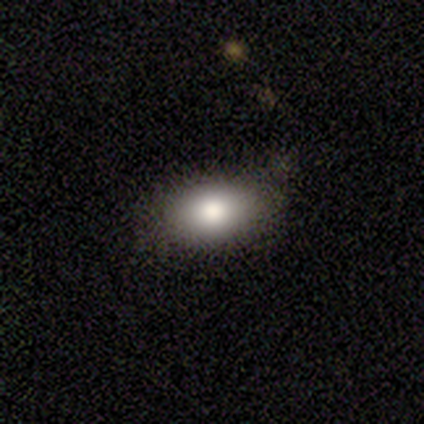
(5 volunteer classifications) This appears to be a smooth galaxy with no disk features (100%) that is in between round and cigar-shaped (100%). Merging: none (100%).